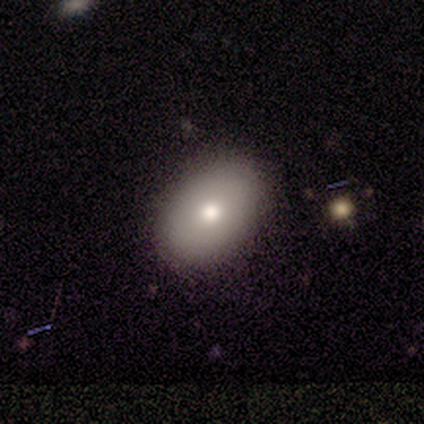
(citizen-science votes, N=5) Smooth or featured? 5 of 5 (100%) said smooth. How rounded? 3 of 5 (60%) said in between. Merging? 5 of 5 (100%) said none.